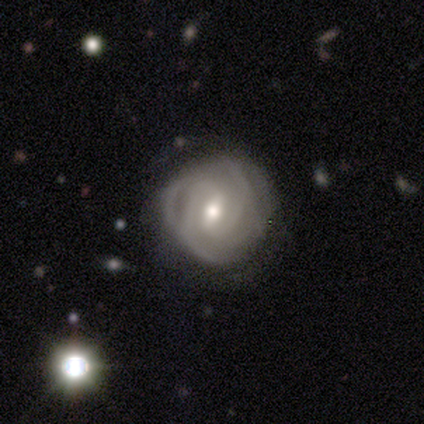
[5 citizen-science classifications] Q: Smooth or featured?
A: featured or disk (80%); runner-up: smooth (20%)
Q: Edge-on disk?
A: no (100%)
Q: Bar?
A: weak (75%); runner-up: no (25%)
Q: Spiral arms?
A: yes (100%)
Q: Spiral winding?
A: tight (100%)
Q: Spiral arm count?
A: 4 (50%); runner-up: 2 (25%)
Q: Bulge size?
A: moderate (100%)
Q: Merging?
A: none (60%); runner-up: major disturbance (40%)